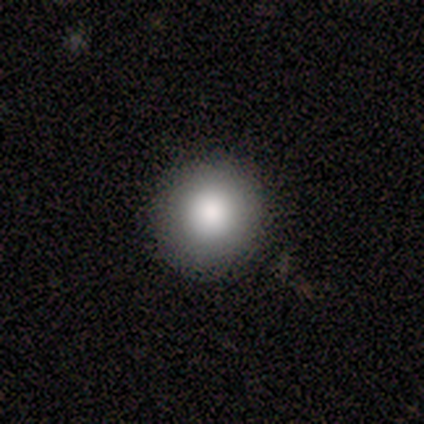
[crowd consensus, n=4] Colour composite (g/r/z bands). It shows a smooth galaxy with no disk features (75%) that is round (100%). Merging: none (100%).